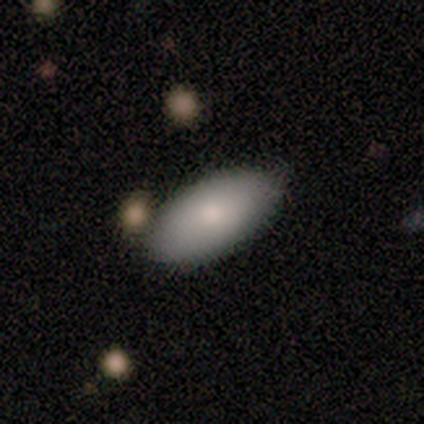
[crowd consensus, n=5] Smooth or featured: smooth — 100%
How rounded: in between — 80% (cigar-shaped — 20%)
Merging: none — 100%